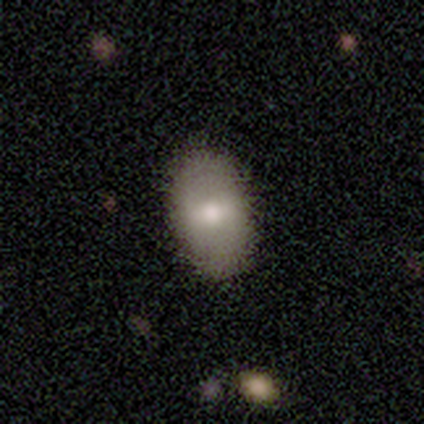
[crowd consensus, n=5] A smooth galaxy with no disk features (60%) that is in between round and cigar-shaped (100%). Merging: none (80%).